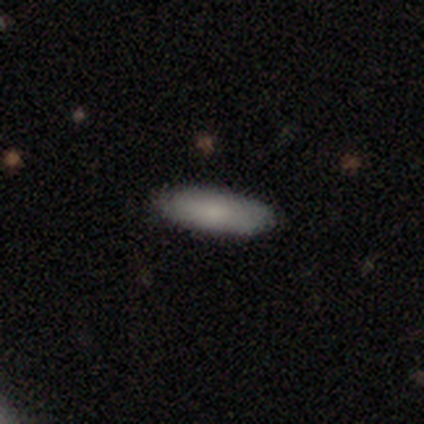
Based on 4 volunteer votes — Smooth or featured: smooth — 100%
How rounded: in between — 50% (tied with cigar-shaped — 50%)
Merging: none — 100%